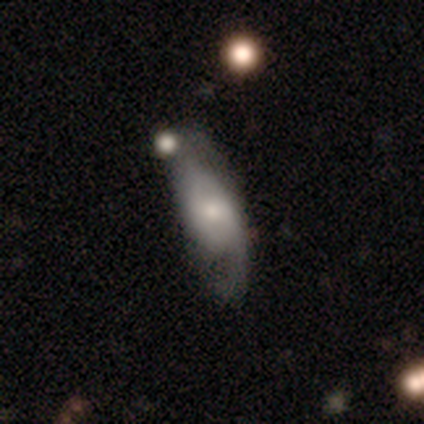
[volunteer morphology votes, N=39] This is likely a featured or disk galaxy (69%). It is clearly not viewed edge-on (96%). Bar: possibly no (50%). Spiral arm pattern: clearly yes (81%). Spiral arm count: clearly 2 (86%). Spiral winding: possibly medium (57%). Central bulge: likely small (62%). Merging: marginally none (33%).